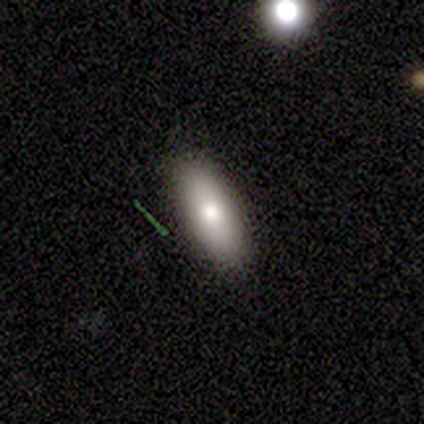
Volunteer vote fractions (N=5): A smooth galaxy with no disk features (80%) that is in between round and cigar-shaped (50%, tied with cigar-shaped). Merging: none (100%).